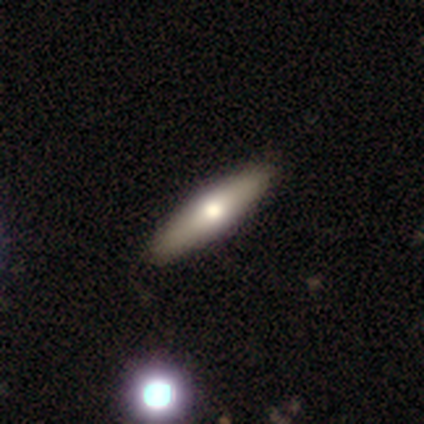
smooth 50% (tied), featured or disk 50% (tied), star or artifact 0%. Down the decision tree: how rounded — cigar-shaped (100%); merging — none (100%).